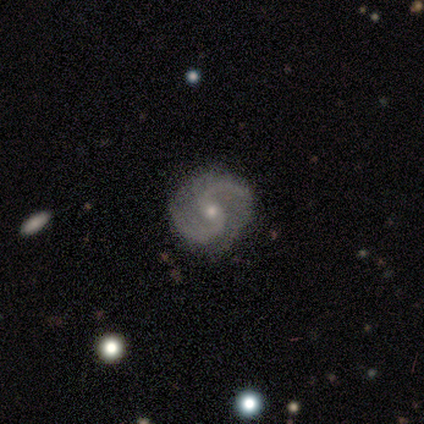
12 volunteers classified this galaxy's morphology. Q: Smooth or featured?
A: featured or disk (83%); runner-up: smooth (17%)
Q: Edge-on disk?
A: no (100%)
Q: Bar?
A: no (70%); runner-up: weak (30%)
Q: Spiral arms?
A: yes (100%)
Q: Spiral winding?
A: medium (60%); runner-up: tight (40%)
Q: Spiral arm count?
A: 2 (100%)
Q: Bulge size?
A: small (70%); runner-up: moderate (30%)
Q: Merging?
A: none (92%); runner-up: major disturbance (8%)